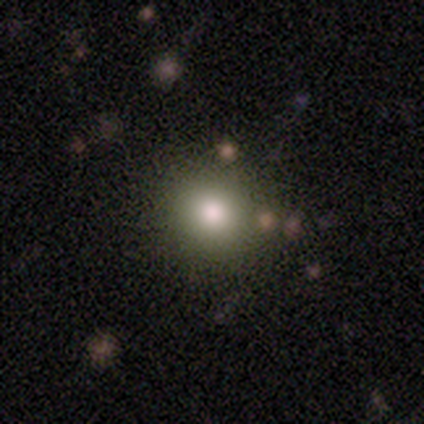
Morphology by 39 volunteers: This is likely a smooth galaxy (69%). How rounded: likely round (78%). Merging: clearly none (94%).